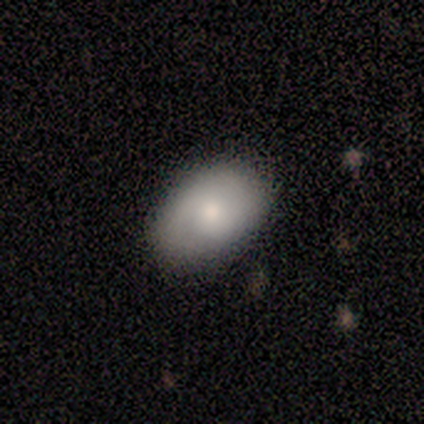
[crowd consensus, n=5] Smooth or featured: smooth — 60% (featured or disk — 40%)
How rounded: in between — 100%
Merging: none — 80% (minor disturbance — 20%)